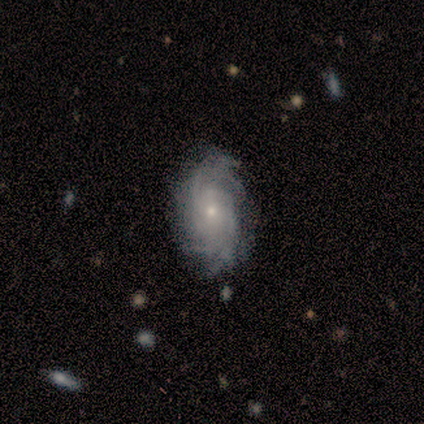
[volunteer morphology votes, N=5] Smooth or featured?
  - featured or disk: 100% *
  - smooth: 0%
  - star or artifact: 0%
Edge-on disk?
  - no: 100% *
  - yes: 0%
Bar?
  - no: 60% *
  - weak: 40%
  - strong: 0%
Spiral arms?
  - yes: 100% *
  - no: 0%
Spiral winding?
  - medium: 60% *
  - tight: 40%
  - loose: 0%
Spiral arm count?
  - 4: 40% * (tied)
  - can't tell: 40% * (tied)
  - 2: 20%
  - 1: 0%
  - 3: 0%
  - more than 4: 0%
Bulge size?
  - small: 60% *
  - moderate: 40%
  - dominant: 0%
  - large: 0%
  - none: 0%
Merging?
  - none: 100% *
  - minor disturbance: 0%
  - major disturbance: 0%
  - merger: 0%